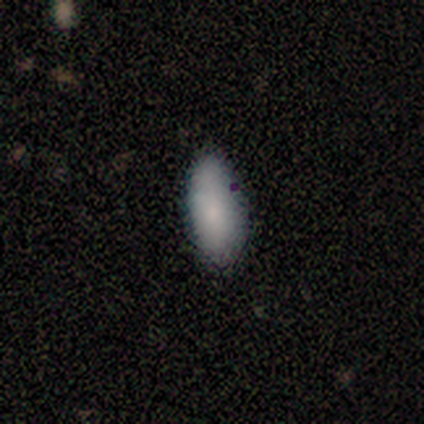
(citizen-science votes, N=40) smooth-or-featured: smooth: 82% | featured or disk: 15% | star or artifact: 2%
  how-rounded: in between: 82% | cigar-shaped: 18% | round: 0%
  merging: none: 85% | minor disturbance: 10% | merger: 5% | major disturbance: 0%